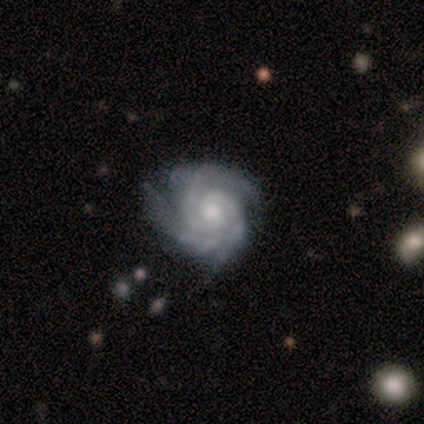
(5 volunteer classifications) Overall: featured or disk (100%). Edge-on disk: no (100%). Bar: no (100%). Spiral arms: yes (100%). Spiral arm count: 2 (100%). Spiral winding: tight (100%). Bulge size: small (80%). Merging: none (80%).